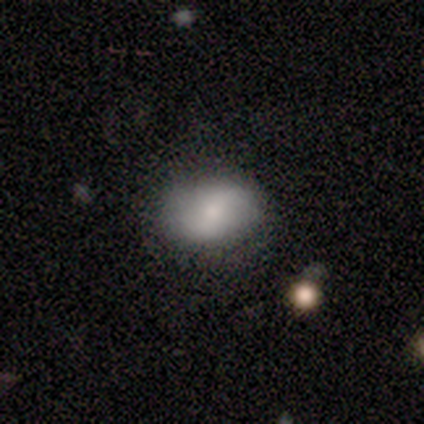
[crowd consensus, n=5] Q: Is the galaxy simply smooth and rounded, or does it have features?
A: smooth — 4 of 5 (80%).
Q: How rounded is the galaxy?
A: in between — 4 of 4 (100%).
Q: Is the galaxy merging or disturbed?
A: none — 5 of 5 (100%).